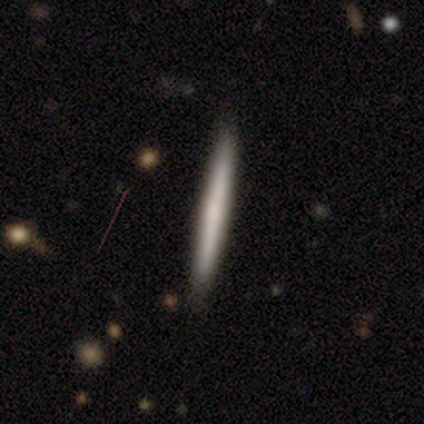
A featured or disk galaxy (75%) viewed edge-on (100%) with no central bulge (100%). Merging: none (75%).